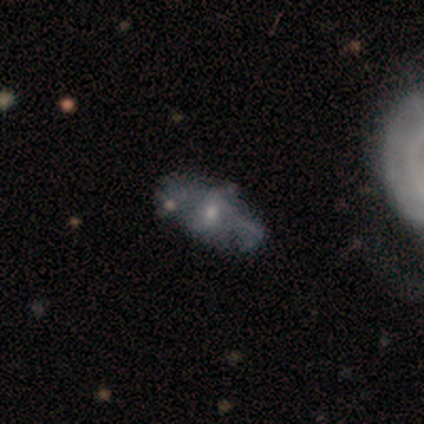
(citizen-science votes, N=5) Volunteers were most divided on "spiral arms" (2-way tie): yes: 50%, no: 50%; "spiral winding" (2-way tie): tight: 50%, medium: 50%, loose: 0%. More confident: edge-on disk — no (100%); bar — no (100%); spiral arm count — 2 (100%); smooth or featured — featured or disk (80%); bulge size — moderate (75%); merging — none (60%).